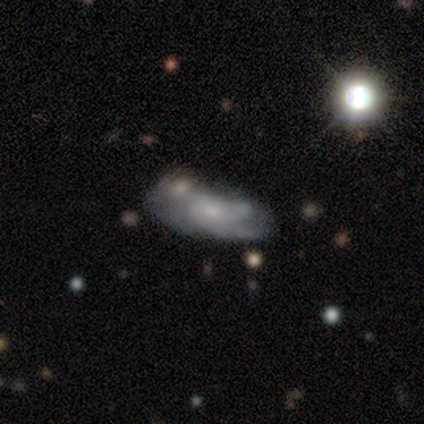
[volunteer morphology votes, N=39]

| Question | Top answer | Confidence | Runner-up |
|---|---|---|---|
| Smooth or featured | featured or disk | 62% | smooth (23%) |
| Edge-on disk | no | 96% | yes (4%) |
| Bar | no | 78% | weak (17%) |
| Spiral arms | yes | 70% | no (30%) |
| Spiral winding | tight | 38% | tied: medium (38%) |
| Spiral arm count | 2 | 38% | tied: can't tell (38%) |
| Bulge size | small | 61% | moderate (26%) |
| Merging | none | 42% | minor disturbance (30%) |